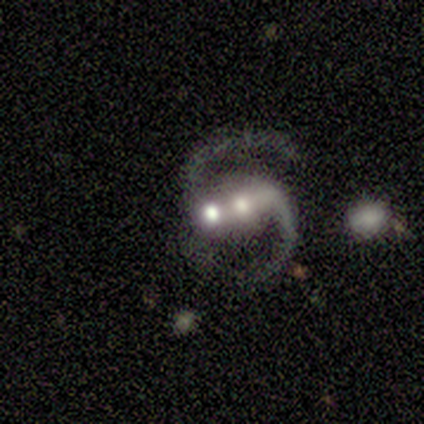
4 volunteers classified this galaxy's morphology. type=featured or disk (75%); edge-on=no (100%); bar=strong (67%); spiral arms=yes (100%); winding=loose (67%); arm count=2 (100%); bulge=large (33%, tied with moderate and small); merging=merger (67%).